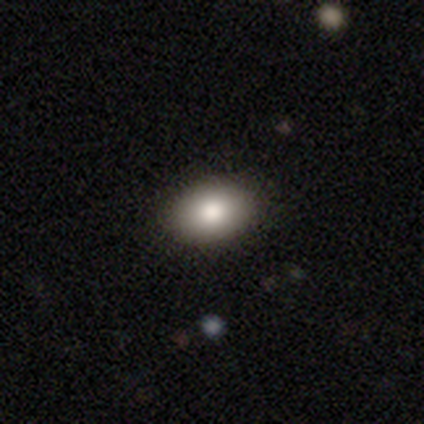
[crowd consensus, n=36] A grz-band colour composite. It shows a smooth galaxy with no disk features (83%) that is in between round and cigar-shaped (70%). Merging: none (91%).